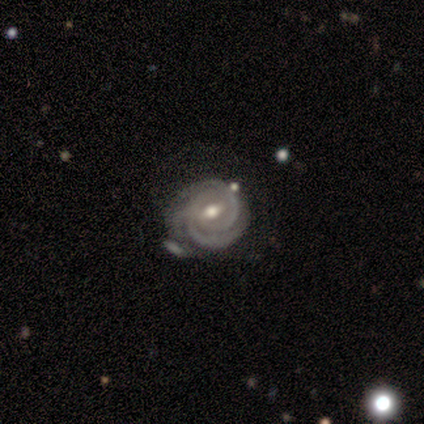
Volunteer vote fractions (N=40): Volunteers were most divided on "spiral arm count": 2: 48%, 3: 31%, can't tell: 14%, 1: 3%, 4: 3%, more than 4: 0%. More confident: edge-on disk — no (100%); spiral arms — yes (97%); spiral winding — tight (86%); bulge size — moderate (77%); smooth or featured — featured or disk (75%); merging — none (58%); bar — weak (57%).